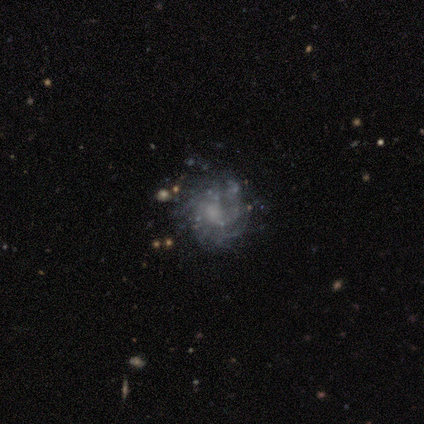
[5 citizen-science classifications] This is clearly a featured or disk galaxy (80%). It is clearly not viewed edge-on (100%). Bar: clearly no (100%). Spiral arm pattern: possibly yes (50%, tied with no). Spiral arm count: possibly more than 4 (50%, tied with can't tell). Spiral winding: clearly tight (100%). Central bulge: possibly none (50%). Merging: likely none (60%).